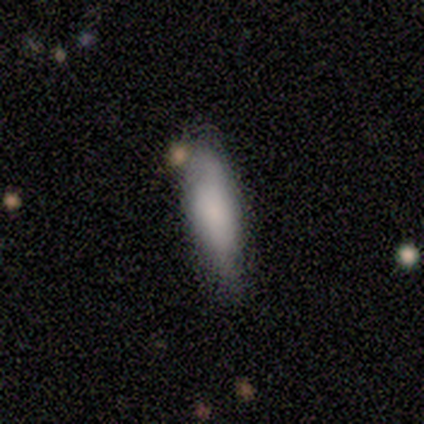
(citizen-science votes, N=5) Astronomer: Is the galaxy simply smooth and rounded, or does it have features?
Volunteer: smooth — 60% (runner-up: featured or disk, 40%).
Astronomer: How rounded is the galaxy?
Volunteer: in between — 67%.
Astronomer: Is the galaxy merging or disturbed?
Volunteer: none — 80%.